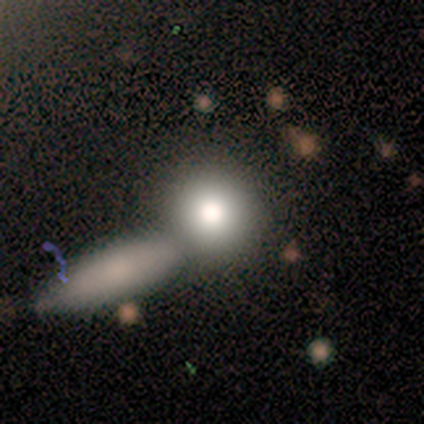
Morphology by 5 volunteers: Smooth or featured? featured or disk (40%, tied with star or artifact)
Edge-on disk? no (100%)
Bar? no (100%)
Spiral arms? no (100%)
Bulge size? moderate (50%, tied with small)
Merging? merger (67%)